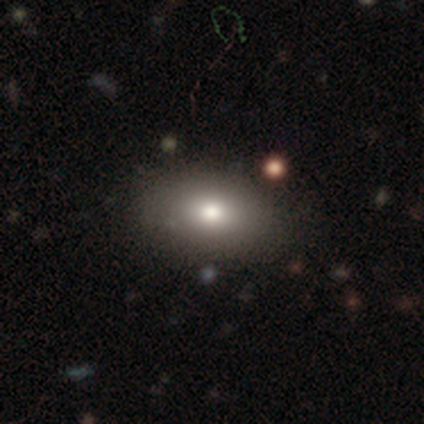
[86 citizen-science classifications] This appears to be a smooth galaxy with no disk features (76%) that is in between round and cigar-shaped (83%). Merging: none (88%).